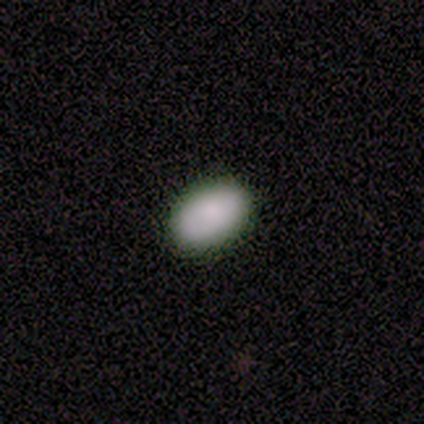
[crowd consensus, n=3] Smooth or featured? 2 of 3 (67%) said smooth. How rounded? 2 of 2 (100%) said in between. Merging? 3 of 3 (100%) said none.